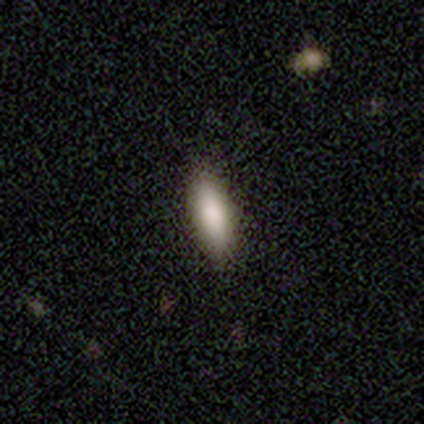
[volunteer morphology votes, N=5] smooth 100%, featured or disk 0%, star or artifact 0%. Down the decision tree: how rounded — in between (80%); merging — none (80%).